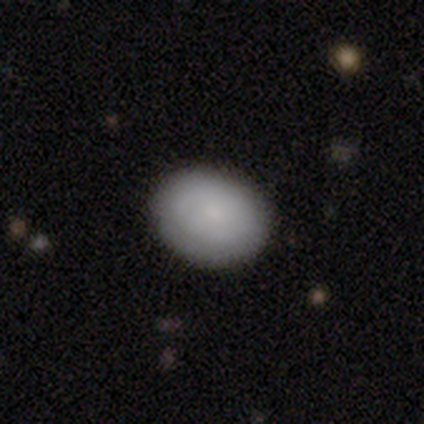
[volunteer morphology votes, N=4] A smooth galaxy with no disk features (100%) that is in between round and cigar-shaped (75%).

Vote fractions:
- Smooth or featured? smooth: 100% / featured or disk: 0% / star or artifact: 0%
- How rounded? in between: 75% / round: 25% / cigar-shaped: 0%
- Merging? none: 100% / minor disturbance: 0% / major disturbance: 0% / merger: 0%